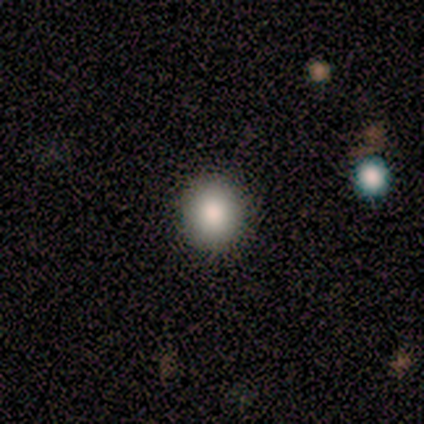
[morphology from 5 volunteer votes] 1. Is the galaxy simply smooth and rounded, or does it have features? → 100% smooth, 0% featured or disk, 0% star or artifact.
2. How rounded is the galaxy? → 100% round, 0% in between, 0% cigar-shaped.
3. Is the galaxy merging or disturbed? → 100% none, 0% minor disturbance, 0% major disturbance, 0% merger.